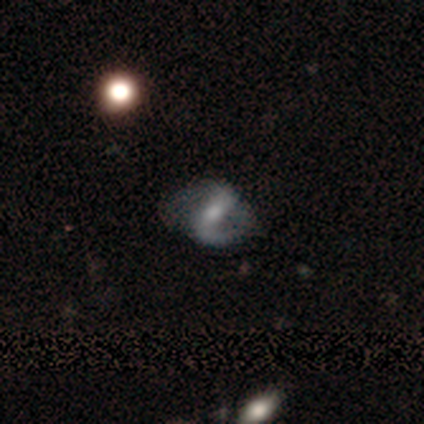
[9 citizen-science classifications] This appears to be a featured or disk galaxy (78%) with a strong bar (86%), 2 (83%) medium (67%) spiral arms (86%) and a moderate central bulge (57%). Merging: none (50%).